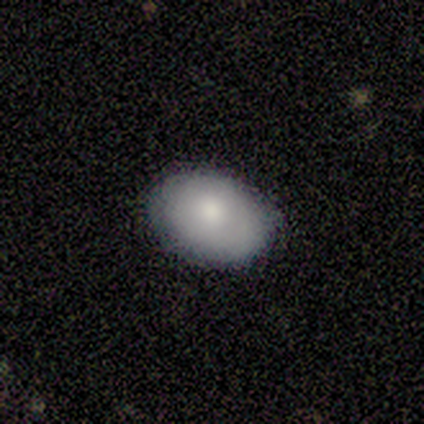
A smooth galaxy with no disk features (67%) that is round (50%, tied with in between). Merging: none (83%).